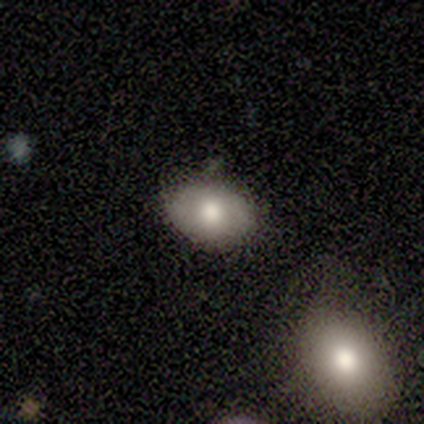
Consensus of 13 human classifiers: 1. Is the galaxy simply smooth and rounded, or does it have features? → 62% smooth, 23% star or artifact, 15% featured or disk.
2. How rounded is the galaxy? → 100% in between, 0% round, 0% cigar-shaped.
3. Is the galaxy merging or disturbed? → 90% none, 10% merger, 0% minor disturbance, 0% major disturbance.